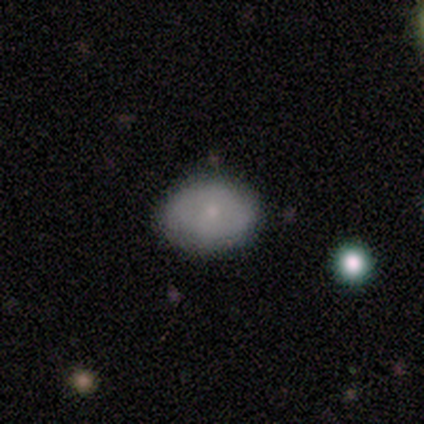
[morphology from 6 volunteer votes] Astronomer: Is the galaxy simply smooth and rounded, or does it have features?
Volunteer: smooth — 67%.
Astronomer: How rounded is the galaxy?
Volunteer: in between — 100%.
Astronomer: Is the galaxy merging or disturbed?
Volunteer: none — 100%.